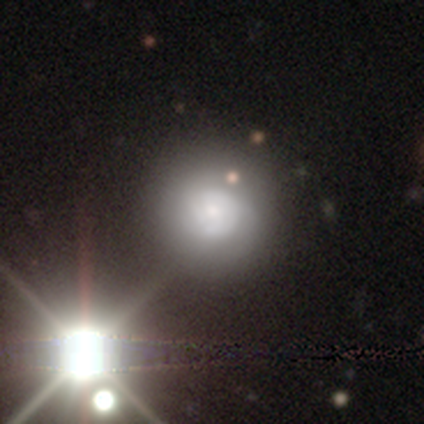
Smooth or featured? smooth (41%)
How rounded? round (94%)
Merging? none (68%)